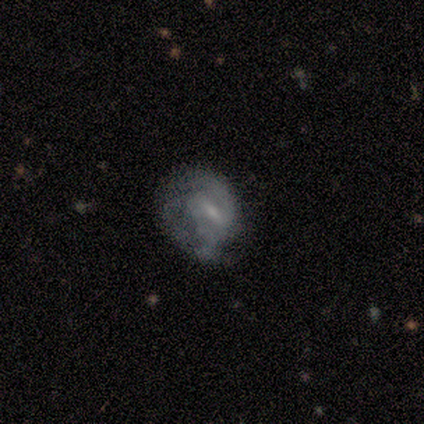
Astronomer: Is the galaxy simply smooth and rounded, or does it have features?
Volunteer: smooth — 60% (runner-up: featured or disk, 40%).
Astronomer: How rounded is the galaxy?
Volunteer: round — 67%.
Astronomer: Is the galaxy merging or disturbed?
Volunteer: none — 40%, tied with major disturbance at 40%.